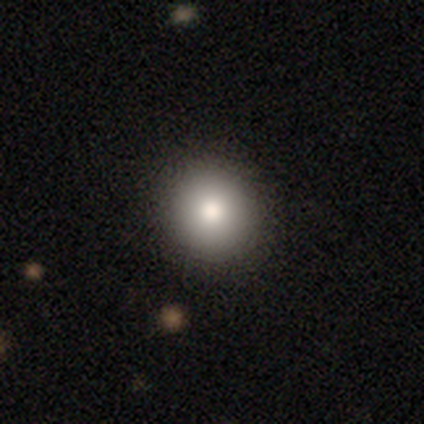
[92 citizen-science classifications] A smooth galaxy with no disk features (77%) that is round (96%).

Vote fractions:
- Smooth or featured? smooth: 77% / star or artifact: 15% / featured or disk: 8%
- How rounded? round: 96% / in between: 3% / cigar-shaped: 1%
- Merging? none: 91% / major disturbance: 5% / minor disturbance: 4% / merger: 0%